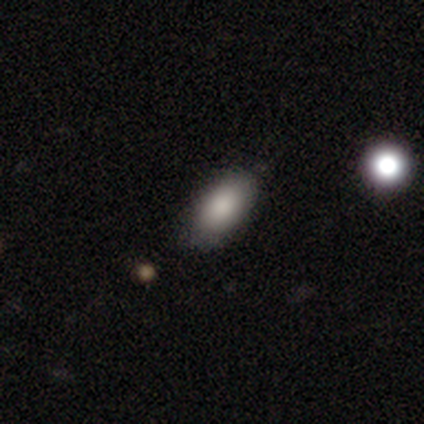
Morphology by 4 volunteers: This appears to be a smooth galaxy with no disk features (100%) that is in between round and cigar-shaped (100%). Merging: none (100%).